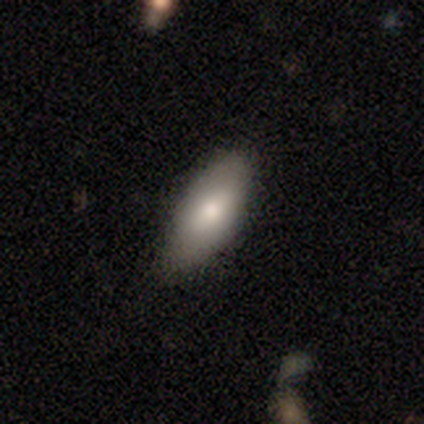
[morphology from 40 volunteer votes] Volunteers were most divided on "smooth or featured": smooth: 75%, featured or disk: 20%, star or artifact: 5%. More confident: merging — none (82%); how rounded — in between (73%).